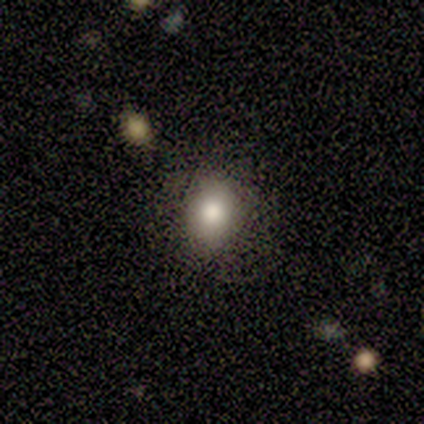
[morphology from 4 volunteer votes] smooth 75%, star or artifact 25%, featured or disk 0%. Down the decision tree: how rounded — in between (67%); merging — none (67%).